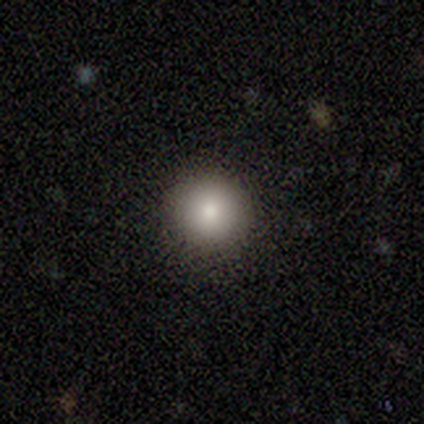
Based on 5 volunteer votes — Overall: smooth (80%). How rounded: round (100%). Merging: none (100%).